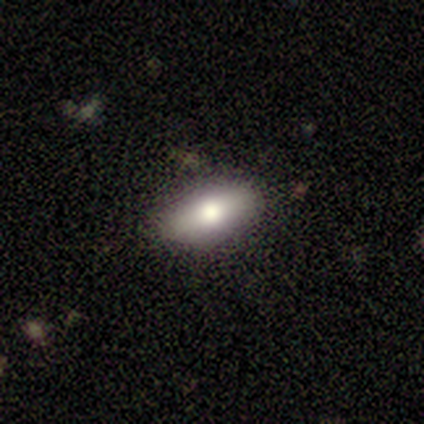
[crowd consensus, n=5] Volunteers were most divided on "smooth or featured" (2-way tie): smooth: 40%, featured or disk: 40%, star or artifact: 20%; "how rounded" (2-way tie): in between: 50%, cigar-shaped: 50%, round: 0%. More confident: merging — none (75%).